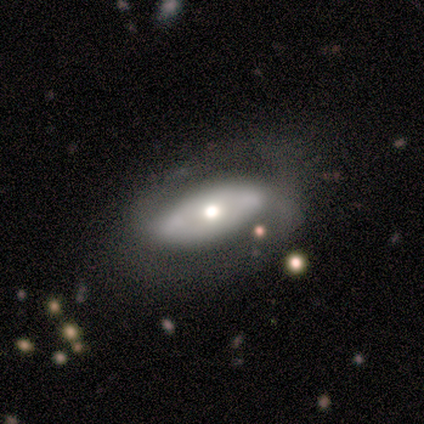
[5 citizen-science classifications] This is clearly a featured or disk galaxy (80%). It is likely not viewed edge-on (75%). Bar: likely no (67%). Spiral arm pattern: likely no (67%). Central bulge: marginally dominant (33%, tied with moderate and small). Merging: marginally none (40%, tied with minor disturbance).